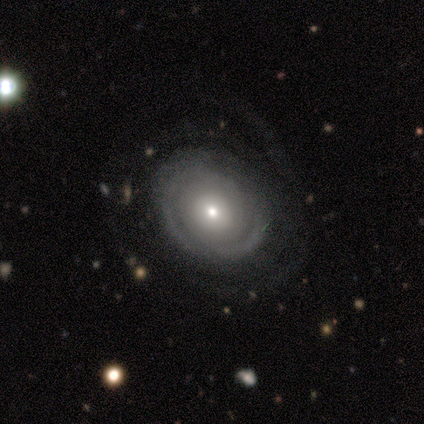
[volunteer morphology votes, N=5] Smooth or featured? 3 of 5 (60%) said featured or disk. Edge-on disk? 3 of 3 (100%) said no. Bar? 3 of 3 (100%) said no. Spiral arms? 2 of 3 (67%) said no. Bulge size? 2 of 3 (67%) said small. Merging? 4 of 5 (80%) said none.